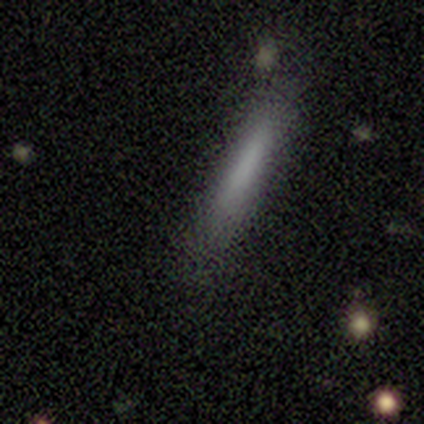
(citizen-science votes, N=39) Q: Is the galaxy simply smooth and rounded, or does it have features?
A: smooth — 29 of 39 (74%).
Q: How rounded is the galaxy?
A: cigar-shaped — 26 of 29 (90%).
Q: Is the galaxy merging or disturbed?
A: none — 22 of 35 (63%).